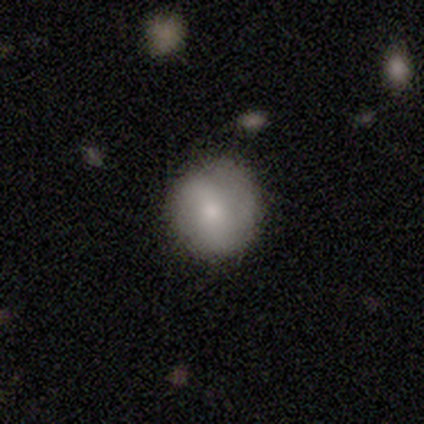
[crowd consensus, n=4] Smooth or featured: smooth — 100%
How rounded: round — 100%
Merging: none — 75% (merger — 25%)